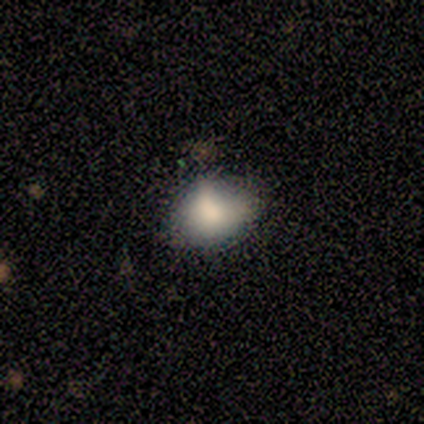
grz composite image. It shows a smooth galaxy with no disk features (100%) that is round (50%, tied with in between). Merging: none (50%, tied with minor disturbance).